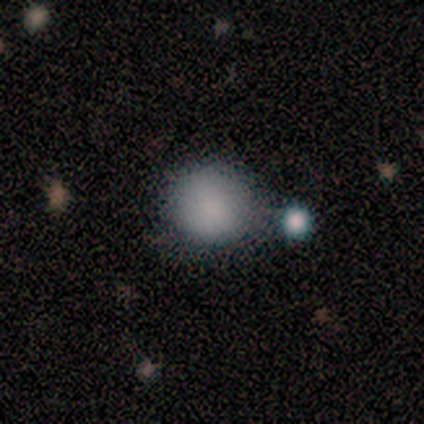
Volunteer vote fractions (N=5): Overall: smooth (80%). How rounded: round (100%). Merging: none (60%; minor disturbance 20%).